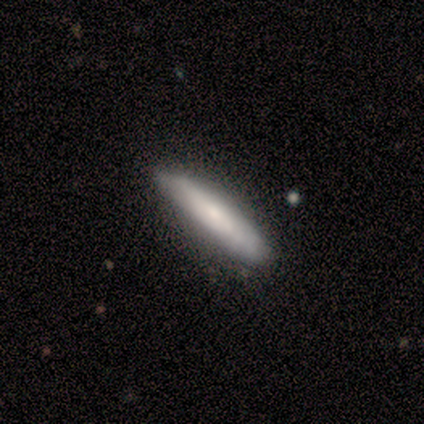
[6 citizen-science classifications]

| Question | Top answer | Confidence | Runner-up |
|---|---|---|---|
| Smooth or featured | featured or disk | 67% | smooth (33%) |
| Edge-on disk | yes | 50% | tied: no (50%) |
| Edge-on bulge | rounded | 100% | — |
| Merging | none | 83% | major disturbance (17%) |